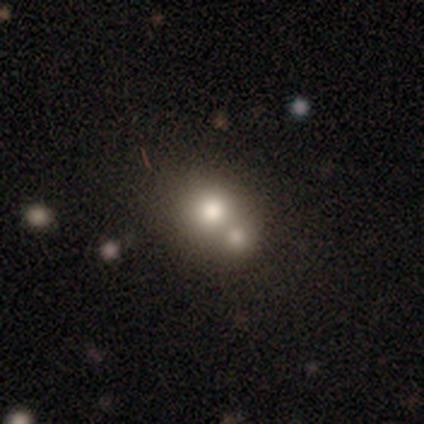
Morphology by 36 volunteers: smooth 61%, featured or disk 22%, star or artifact 17%. Down the decision tree: how rounded — round (77%); merging — merger (57%).